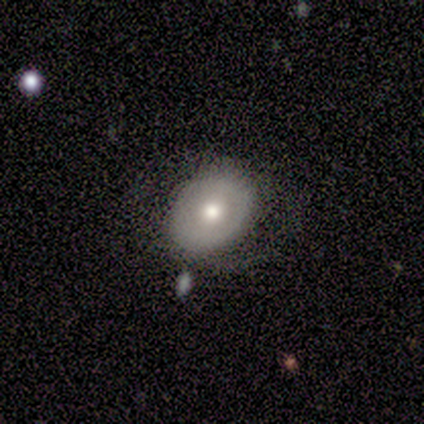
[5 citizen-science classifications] Smooth or featured: smooth — 60% (featured or disk — 40%)
How rounded: round — 67% (in between — 33%)
Merging: none — 100%